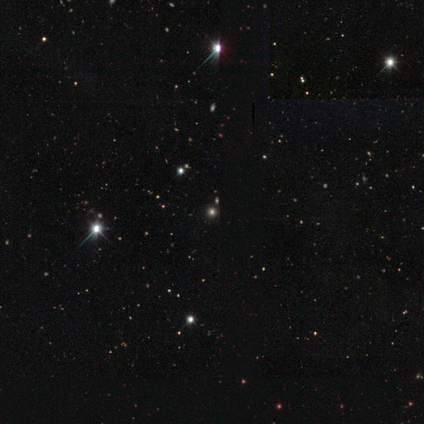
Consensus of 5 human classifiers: This is clearly a star or artifact rather than a galaxy (100%).